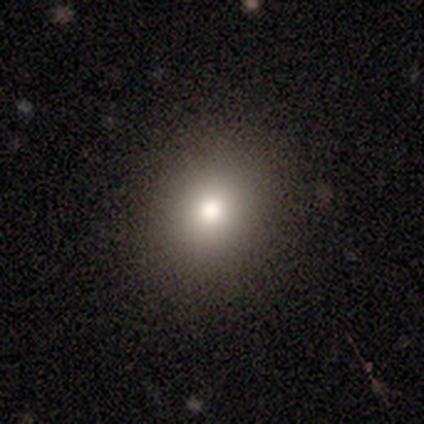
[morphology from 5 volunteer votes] Overall: smooth (80%). How rounded: round (75%). Merging: none (75%).